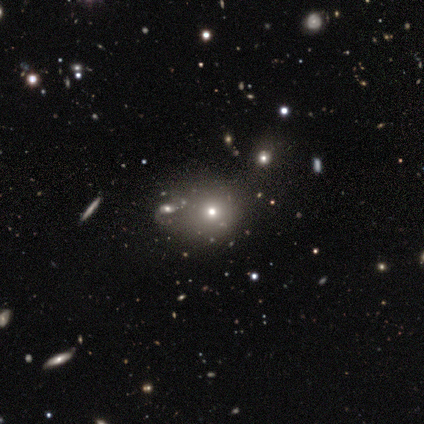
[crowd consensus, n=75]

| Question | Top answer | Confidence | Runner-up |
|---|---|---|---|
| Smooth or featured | smooth | 61% | star or artifact (28%) |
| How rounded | round | 78% | in between (22%) |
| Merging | none | 33% | merger (20%) |